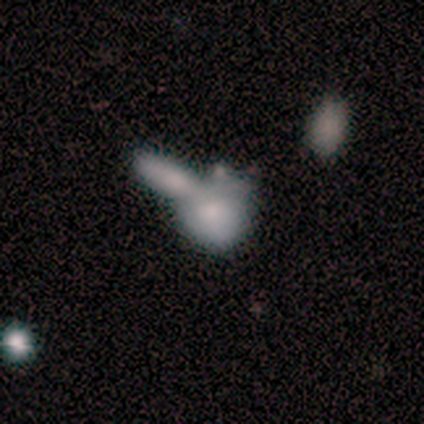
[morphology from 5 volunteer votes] type=smooth (80%); roundness=round (75%); merging=merger (100%).